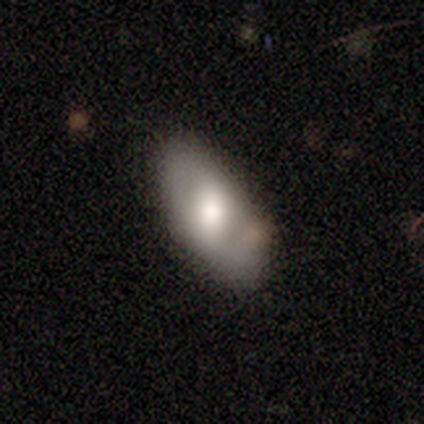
Smooth or featured? featured or disk (57%)
Edge-on disk? no (100%)
Bar? no (50%)
Spiral arms? yes (75%)
Spiral winding? tight (33%, tied with medium and loose)
Spiral arm count? 2 (100%)
Bulge size? large (50%)
Merging? none (71%)